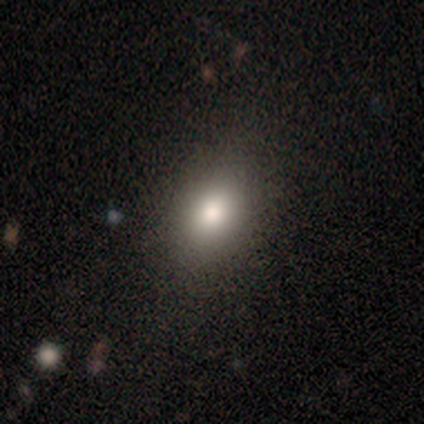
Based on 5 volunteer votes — Smooth or featured? 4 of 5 (80%) said smooth. How rounded? 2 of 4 (50%, tied with in between) said round. Merging? 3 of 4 (75%) said none.